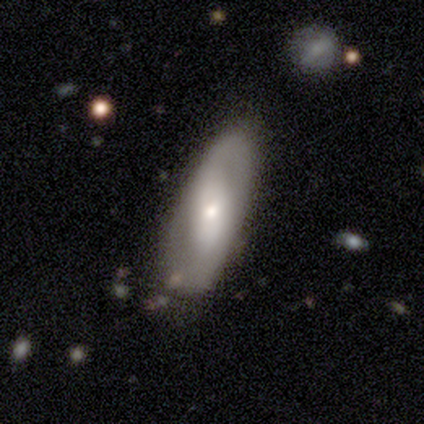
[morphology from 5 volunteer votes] Q: Smooth or featured?
A: featured or disk (80%); runner-up: smooth (20%)
Q: Edge-on disk?
A: no (100%)
Q: Bar?
A: weak (50%); runner-up: strong (25%)
Q: Spiral arms?
A: yes (100%)
Q: Spiral winding?
A: medium (50%); tied with: loose (50%)
Q: Spiral arm count?
A: 2 (100%)
Q: Bulge size?
A: small (75%); runner-up: moderate (25%)
Q: Merging?
A: none (80%); runner-up: minor disturbance (20%)